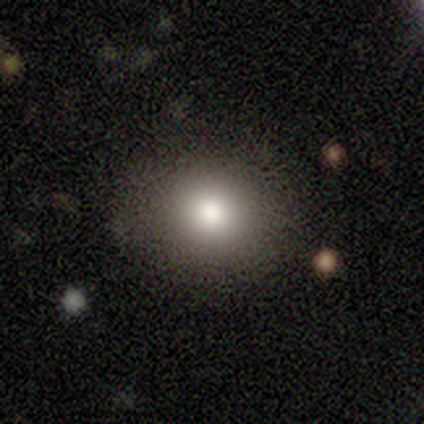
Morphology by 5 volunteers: Volunteers were most divided on "how rounded" (2-way tie): round: 50%, in between: 50%, cigar-shaped: 0%. More confident: merging — none (100%); smooth or featured — smooth (80%).